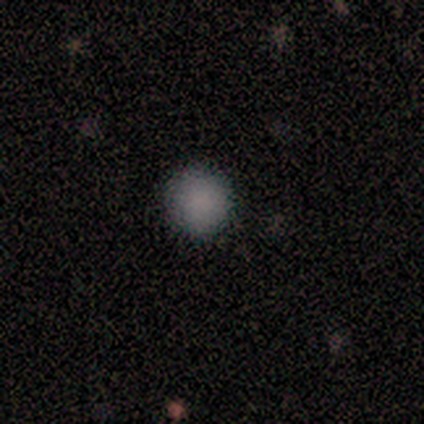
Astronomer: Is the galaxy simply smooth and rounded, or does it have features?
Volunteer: smooth — 100%.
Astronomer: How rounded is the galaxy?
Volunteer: round — 100%.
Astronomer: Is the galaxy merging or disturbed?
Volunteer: none — 100%.